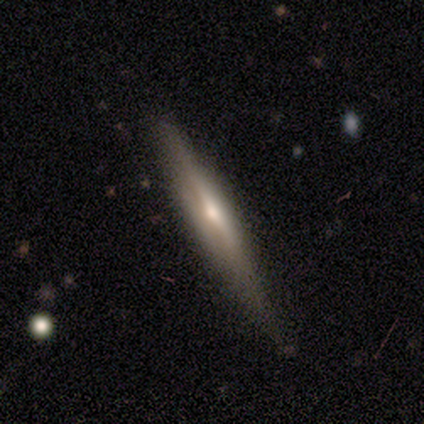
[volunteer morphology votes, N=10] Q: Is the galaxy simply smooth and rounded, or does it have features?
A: featured or disk — 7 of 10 (70%).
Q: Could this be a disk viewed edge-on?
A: yes — 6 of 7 (86%).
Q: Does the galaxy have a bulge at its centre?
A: rounded — 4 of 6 (67%).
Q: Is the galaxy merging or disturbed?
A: none — 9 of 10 (90%).